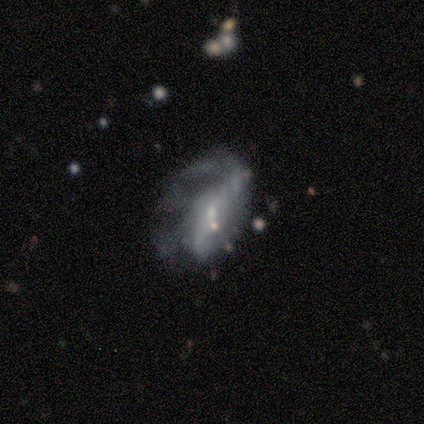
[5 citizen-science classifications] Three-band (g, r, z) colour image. It shows a featured or disk galaxy (80%) with a weak bar (50%, tied with no), no spiral arms (100%) and no central bulge (75%). Merging: major disturbance (60%).